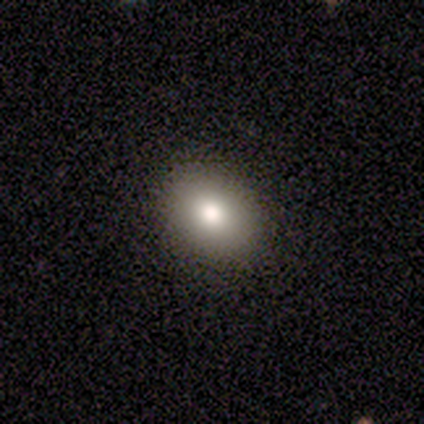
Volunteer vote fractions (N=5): Overall: smooth (60%; featured or disk 20%). How rounded: in between (67%; round 33%). Merging: none (75%).